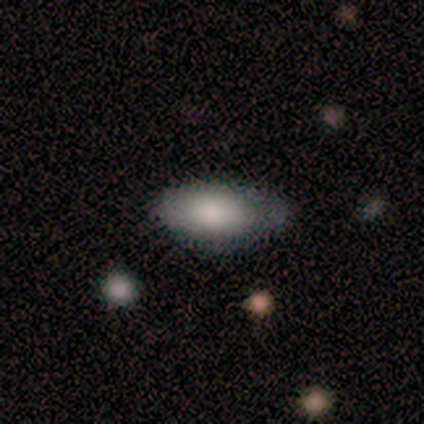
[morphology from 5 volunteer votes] This is clearly a smooth galaxy (80%). How rounded: clearly in between (100%). Merging: possibly none (50%, tied with minor disturbance).